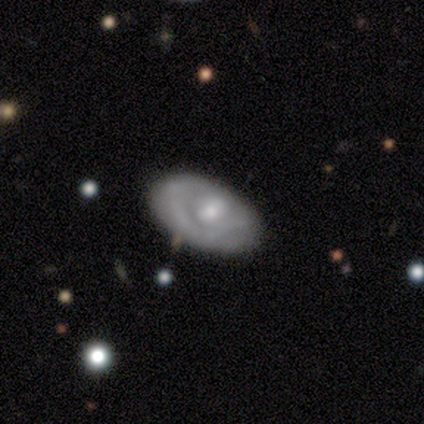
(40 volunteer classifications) Q: Smooth or featured?
A: featured or disk (72%); runner-up: smooth (25%)
Q: Edge-on disk?
A: no (97%); runner-up: yes (3%)
Q: Bar?
A: no (79%); runner-up: strong (11%)
Q: Spiral arms?
A: no (68%); runner-up: yes (32%)
Q: Bulge size?
A: moderate (57%); runner-up: small (36%)
Q: Merging?
A: none (64%); runner-up: minor disturbance (28%)